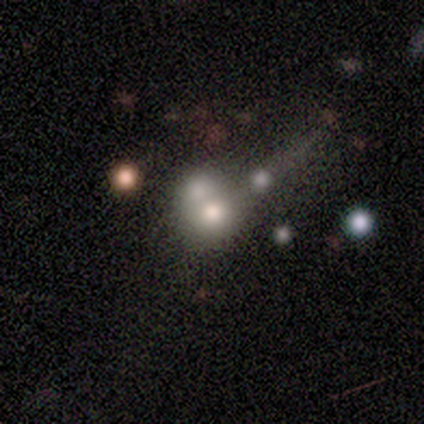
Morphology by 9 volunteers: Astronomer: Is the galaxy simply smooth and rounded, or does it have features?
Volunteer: smooth — 78%.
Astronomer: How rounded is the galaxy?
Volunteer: round — 71%.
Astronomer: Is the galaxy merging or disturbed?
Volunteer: merger — 67%.